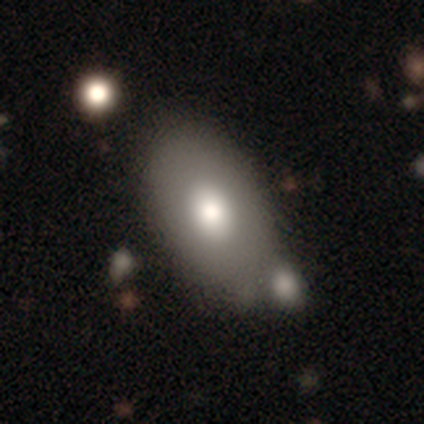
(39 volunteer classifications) smooth 69%, featured or disk 31%, star or artifact 0%. Down the decision tree: how rounded — in between (96%); merging — none (54%).